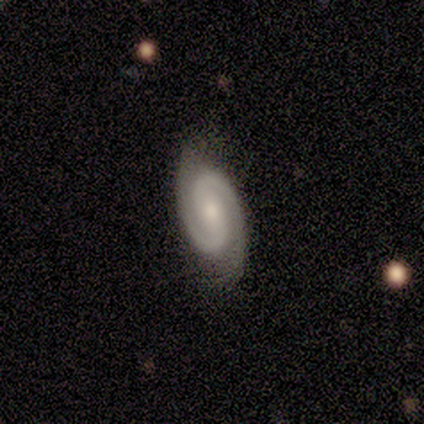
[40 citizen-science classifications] A featured or disk galaxy (90%) with no bar (50%), 2 (94%) tight (45%) spiral arms (97%) and a small central bulge (59%).

Vote fractions:
- Smooth or featured? featured or disk: 90% / smooth: 10% / star or artifact: 0%
- Edge-on disk? no: 94% / yes: 6%
- Bar? no: 50% / weak: 26% / strong: 24%
- Spiral arms? yes: 97% / no: 3%
- Spiral winding? tight: 45% / medium: 42% / loose: 12%
- Spiral arm count? 2: 94% / 3: 3% / can't tell: 3% / 1: 0% / 4: 0% / more than 4: 0%
- Bulge size? small: 59% / moderate: 35% / none: 6% / dominant: 0% / large: 0%
- Merging? none: 78% / minor disturbance: 22% / major disturbance: 0% / merger: 0%